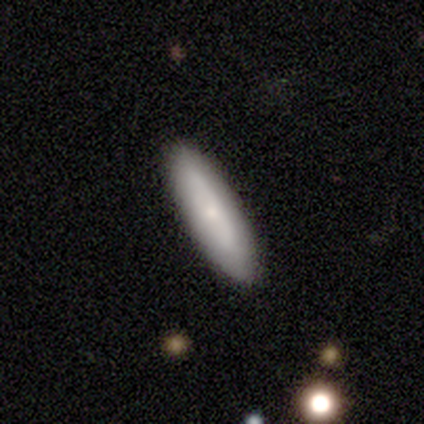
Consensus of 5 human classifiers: Q: Smooth or featured?
A: smooth (100%)
Q: How rounded?
A: cigar-shaped (80%); runner-up: in between (20%)
Q: Merging?
A: none (100%)